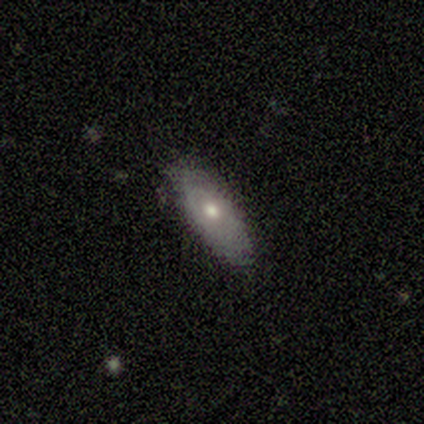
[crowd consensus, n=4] Smooth or featured?
  - featured or disk: 50% *
  - smooth: 25%
  - star or artifact: 25%
Edge-on disk?
  - no: 100% *
  - yes: 0%
Bar?
  - no: 100% *
  - strong: 0%
  - weak: 0%
Spiral arms?
  - no: 100% *
  - yes: 0%
Bulge size?
  - moderate: 100% *
  - dominant: 0%
  - large: 0%
  - small: 0%
  - none: 0%
Merging?
  - minor disturbance: 67% *
  - none: 33%
  - major disturbance: 0%
  - merger: 0%